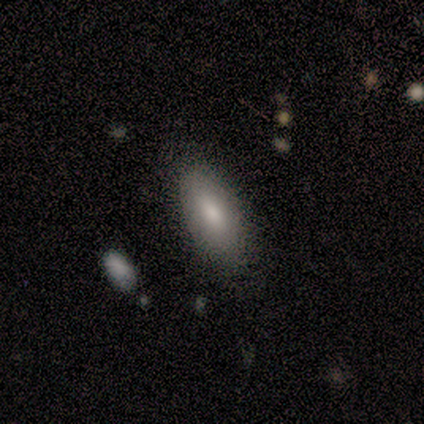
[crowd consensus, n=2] smooth-or-featured: smooth: 100% | featured or disk: 0% | star or artifact: 0%
  how-rounded: in between: 100% | round: 0% | cigar-shaped: 0%
  merging: none: 50% (tied) | minor disturbance: 50% (tied) | major disturbance: 0% | merger: 0%